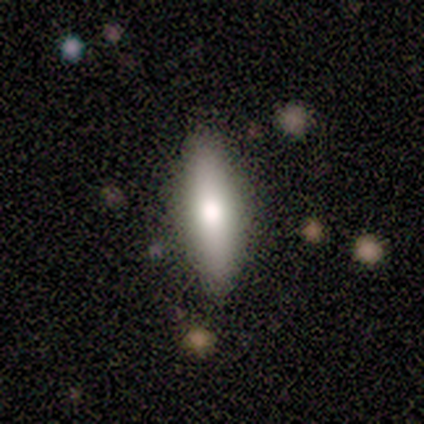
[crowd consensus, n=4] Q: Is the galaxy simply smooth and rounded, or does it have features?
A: smooth — 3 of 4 (75%).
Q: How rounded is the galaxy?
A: cigar-shaped — 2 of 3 (67%).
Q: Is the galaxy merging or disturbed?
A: none — 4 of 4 (100%).